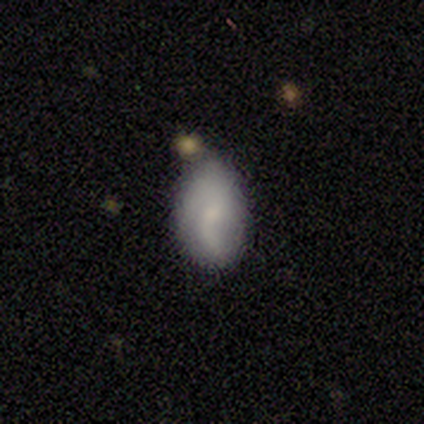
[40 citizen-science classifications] smooth-or-featured: smooth: 48% | featured or disk: 45% | star or artifact: 8%
  how-rounded: in between: 100% | round: 0% | cigar-shaped: 0%
  merging: none: 57% | minor disturbance: 38% | major disturbance: 3% | merger: 3%